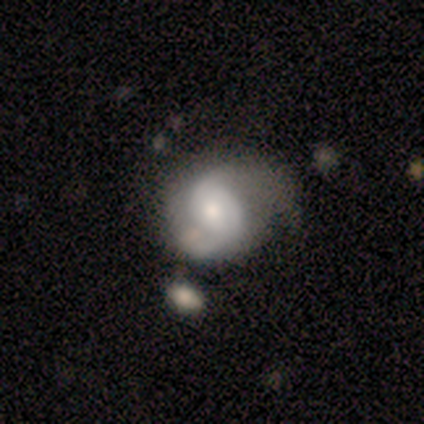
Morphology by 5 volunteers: Smooth or featured?
  - smooth: 60% *
  - featured or disk: 40%
  - star or artifact: 0%
How rounded?
  - in between: 67% *
  - round: 33%
  - cigar-shaped: 0%
Merging?
  - minor disturbance: 40% *
  - none: 20%
  - major disturbance: 20%
  - merger: 20%